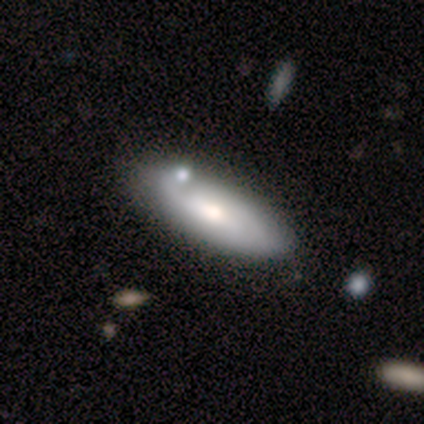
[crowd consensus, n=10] smooth 60%, featured or disk 40%, star or artifact 0%. Down the decision tree: how rounded — in between (100%); merging — none (70%).